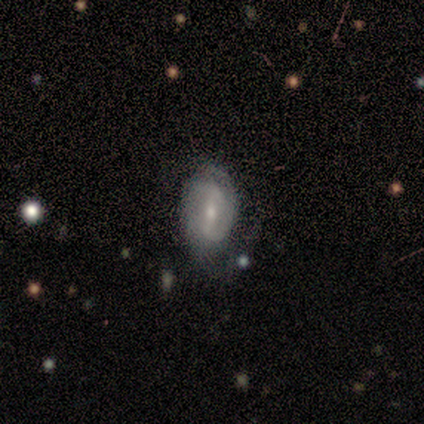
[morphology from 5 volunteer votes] A featured or disk galaxy (100%) with a weak bar (60%), 2 (40%) loose (60%) spiral arms (100%) and a moderate central bulge (80%).

Vote fractions:
- Smooth or featured? featured or disk: 100% / smooth: 0% / star or artifact: 0%
- Edge-on disk? no: 100% / yes: 0%
- Bar? weak: 60% / strong: 20% / no: 20%
- Spiral arms? yes: 100% / no: 0%
- Spiral winding? loose: 60% / tight: 40% / medium: 0%
- Spiral arm count? 2: 40% / 1: 20% / 3: 20% / can't tell: 20% / 4: 0% / more than 4: 0%
- Bulge size? moderate: 80% / small: 20% / dominant: 0% / large: 0% / none: 0%
- Merging? none: 60% / minor disturbance: 40% / major disturbance: 0% / merger: 0%